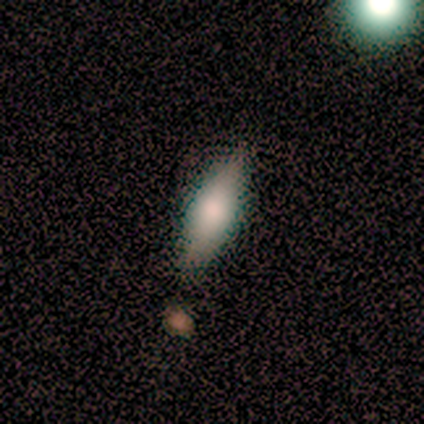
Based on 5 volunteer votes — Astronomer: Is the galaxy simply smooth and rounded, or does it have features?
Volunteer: smooth — 100%.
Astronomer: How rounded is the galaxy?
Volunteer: in between — 100%.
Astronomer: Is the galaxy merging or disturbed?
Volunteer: none — 80%.